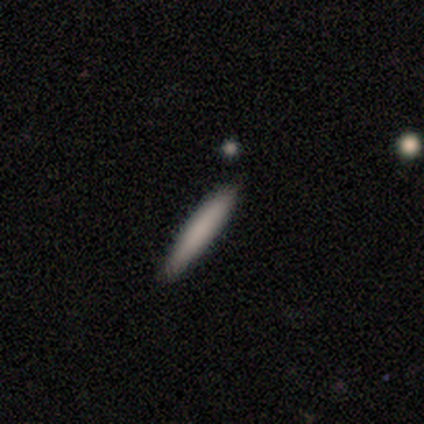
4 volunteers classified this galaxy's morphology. smooth 100%, featured or disk 0%, star or artifact 0%. Down the decision tree: how rounded — cigar-shaped (100%); merging — none (75%).